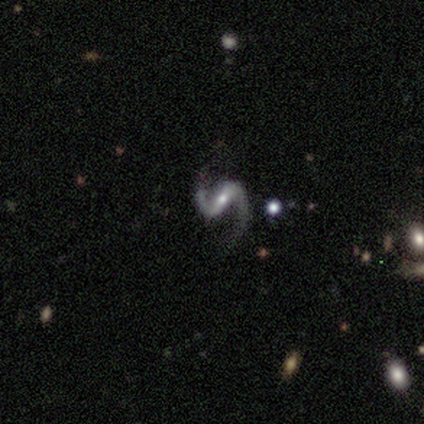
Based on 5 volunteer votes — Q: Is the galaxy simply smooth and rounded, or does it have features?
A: featured or disk — 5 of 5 (100%).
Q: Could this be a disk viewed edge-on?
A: no — 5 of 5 (100%).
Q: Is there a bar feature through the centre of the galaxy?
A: strong — 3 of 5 (60%).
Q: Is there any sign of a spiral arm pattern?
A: yes — 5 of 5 (100%).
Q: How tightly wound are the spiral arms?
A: loose — 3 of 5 (60%).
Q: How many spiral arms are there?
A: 2 — 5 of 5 (100%).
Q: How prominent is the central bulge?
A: small — 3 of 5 (60%).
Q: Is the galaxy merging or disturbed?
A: none — 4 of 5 (80%).